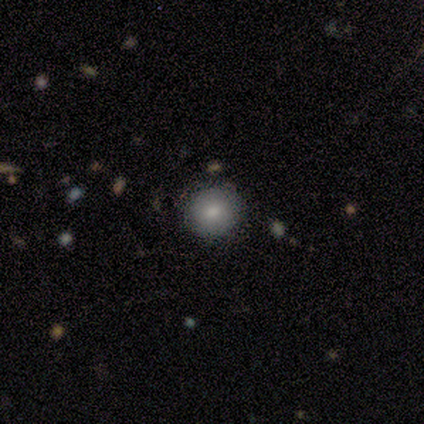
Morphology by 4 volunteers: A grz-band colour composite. It shows a smooth galaxy with no disk features (100%) that is round (100%). Merging: none (100%).